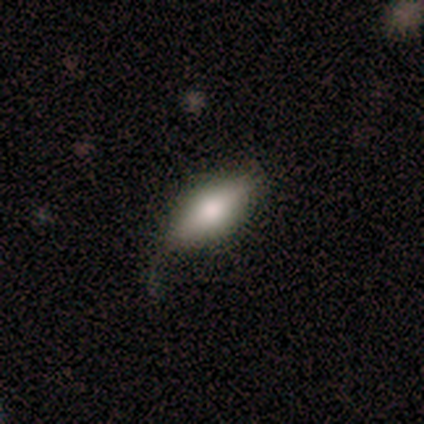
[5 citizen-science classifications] smooth_or_featured: smooth (p=0.80) [alt: featured or disk p=0.20]
how_rounded: in between (p=0.75) [alt: cigar-shaped p=0.25]
merging: minor disturbance (p=0.60) [alt: major disturbance p=0.40]